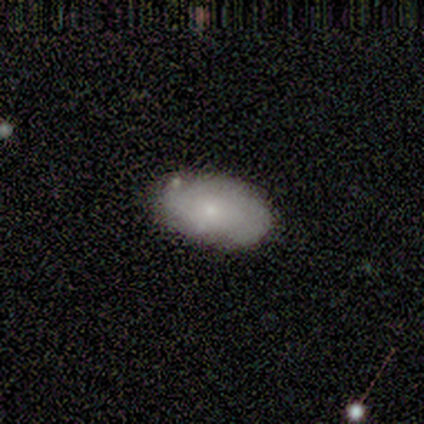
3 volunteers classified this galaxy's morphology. Volunteers were most divided on "smooth or featured" (3-way tie): smooth: 33%, featured or disk: 33%, star or artifact: 33%; "merging" (2-way tie): none: 50%, minor disturbance: 50%, major disturbance: 0%, merger: 0%. More confident: how rounded — in between (100%).